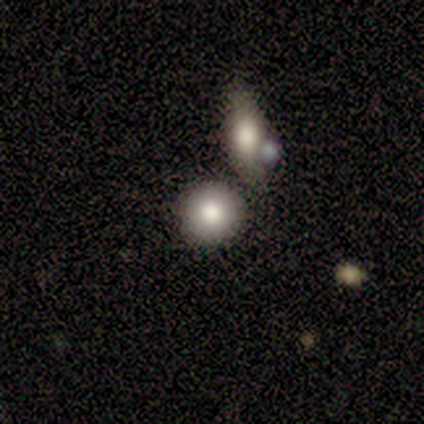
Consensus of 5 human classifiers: This is clearly a smooth galaxy (80%). How rounded: clearly round (100%). Merging: likely none (60%).